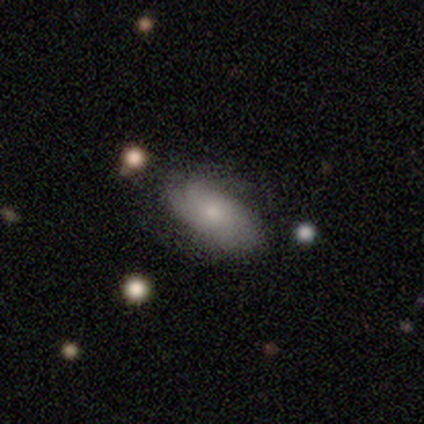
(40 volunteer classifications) smooth 60%, featured or disk 32%, star or artifact 8%. Down the decision tree: how rounded — in between (100%); merging — none (54%).